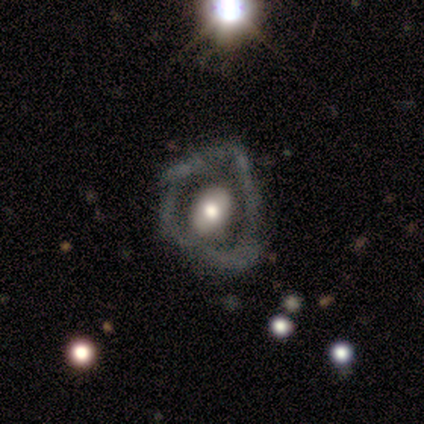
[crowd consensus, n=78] Smooth or featured? featured or disk (68%)
Edge-on disk? no (96%)
Bar? no (76%)
Spiral arms? no (82%)
Bulge size? moderate (61%)
Merging? major disturbance (49%)